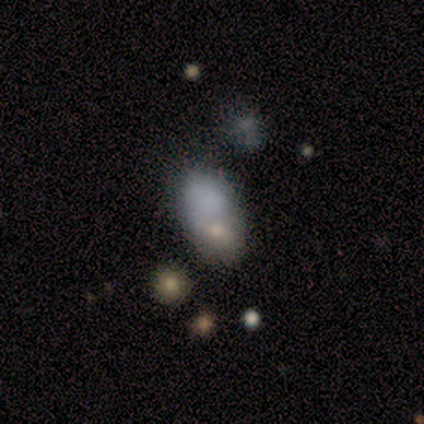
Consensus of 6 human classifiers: Morphology: type=smooth (100%); roundness=in between (100%); merging=merger (50%).